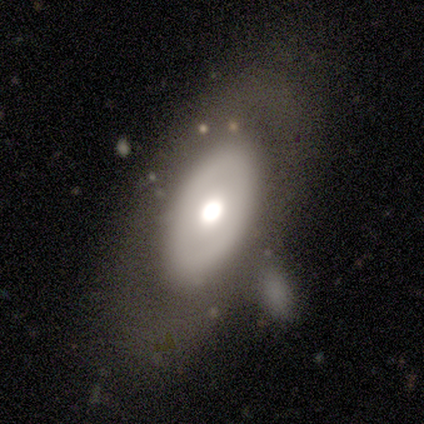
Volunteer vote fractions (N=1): Smooth or featured?
  - featured or disk: 100% *
  - smooth: 0%
  - star or artifact: 0%
Edge-on disk?
  - no: 100% *
  - yes: 0%
Bar?
  - no: 100% *
  - strong: 0%
  - weak: 0%
Spiral arms?
  - no: 100% *
  - yes: 0%
Bulge size?
  - none: 100% *
  - dominant: 0%
  - large: 0%
  - moderate: 0%
  - small: 0%
Merging?
  - major disturbance: 100% *
  - none: 0%
  - minor disturbance: 0%
  - merger: 0%